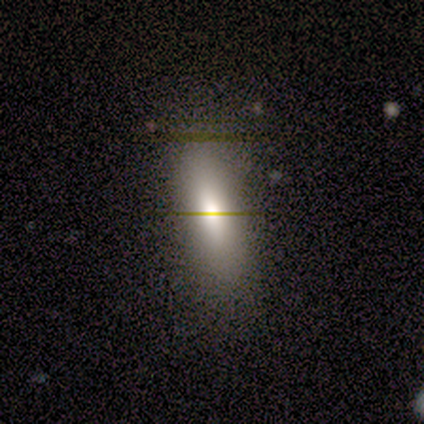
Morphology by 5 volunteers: Overall: smooth (60%; featured or disk 40%). How rounded: in between (67%; cigar-shaped 33%). Merging: none (100%).